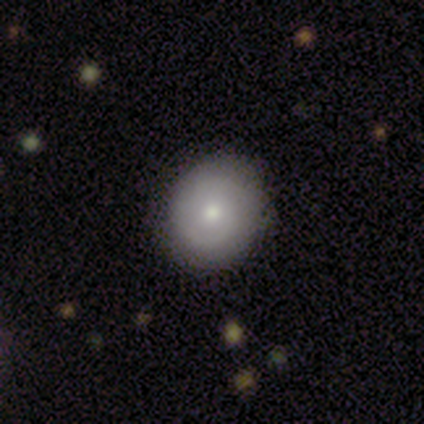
A smooth galaxy with no disk features (60%) that is round (67%).

Vote fractions:
- Smooth or featured? smooth: 60% / featured or disk: 40% / star or artifact: 0%
- How rounded? round: 67% / in between: 33% / cigar-shaped: 0%
- Merging? none: 80% / minor disturbance: 20% / major disturbance: 0% / merger: 0%